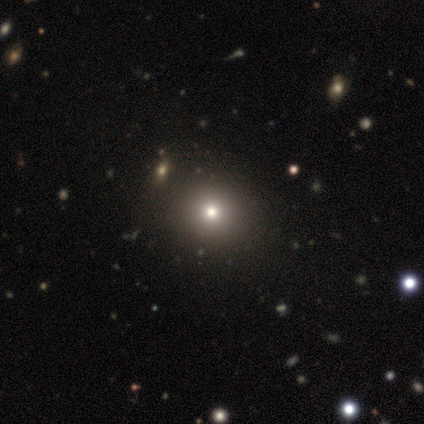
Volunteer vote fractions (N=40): Volunteers were most divided on "smooth or featured": smooth: 72%, star or artifact: 18%, featured or disk: 10%. More confident: how rounded — round (90%); merging — none (67%).